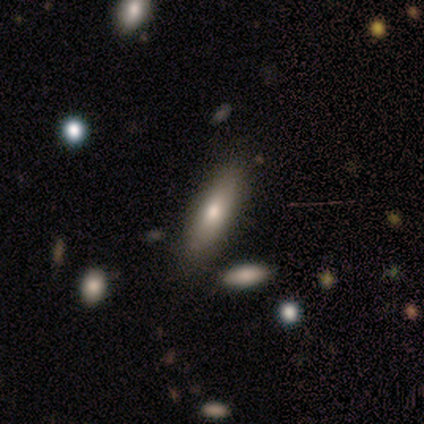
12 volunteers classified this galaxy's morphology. Smooth or featured?
  - smooth: 75% *
  - featured or disk: 25%
  - star or artifact: 0%
How rounded?
  - cigar-shaped: 56% *
  - in between: 44%
  - round: 0%
Merging?
  - none: 83% *
  - minor disturbance: 8%
  - major disturbance: 8%
  - merger: 0%